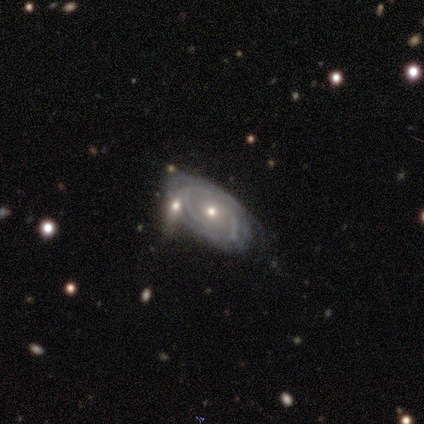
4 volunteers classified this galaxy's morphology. Smooth or featured?
  - featured or disk: 100% *
  - smooth: 0%
  - star or artifact: 0%
Edge-on disk?
  - no: 100% *
  - yes: 0%
Bar?
  - no: 100% *
  - strong: 0%
  - weak: 0%
Spiral arms?
  - yes: 100% *
  - no: 0%
Spiral winding?
  - tight: 100% *
  - medium: 0%
  - loose: 0%
Spiral arm count?
  - can't tell: 75% *
  - 2: 25%
  - 1: 0%
  - 3: 0%
  - 4: 0%
  - more than 4: 0%
Bulge size?
  - moderate: 50% * (tied)
  - small: 50% * (tied)
  - dominant: 0%
  - large: 0%
  - none: 0%
Merging?
  - none: 100% *
  - minor disturbance: 0%
  - major disturbance: 0%
  - merger: 0%